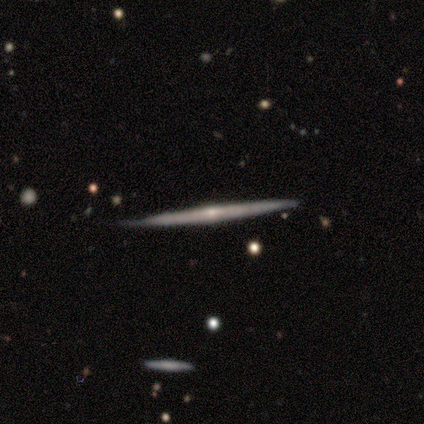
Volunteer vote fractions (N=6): Morphology: type=featured or disk (67%); edge-on=yes (75%); edge-on bulge=rounded (67%); merging=none (83%).